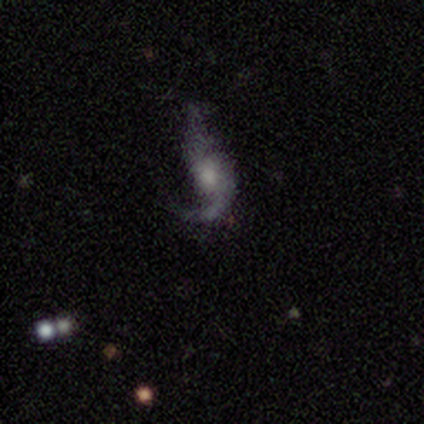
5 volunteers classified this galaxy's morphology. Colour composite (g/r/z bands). It shows a featured or disk galaxy (80%) with no bar (67%), 2 (100%) loose (100%) spiral arms (100%) and a moderate central bulge (100%). Merging: minor disturbance (50%).